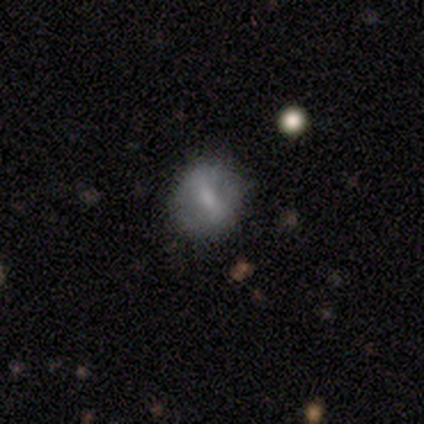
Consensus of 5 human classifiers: Smooth or featured? smooth (80%)
How rounded? round (50%, tied with in between)
Merging? none (80%)